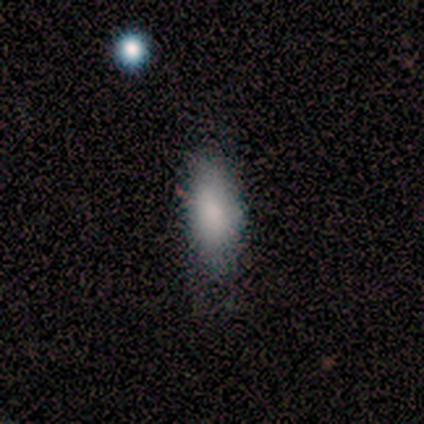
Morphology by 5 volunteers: type=smooth (80%); roundness=in between (100%); merging=none (100%).